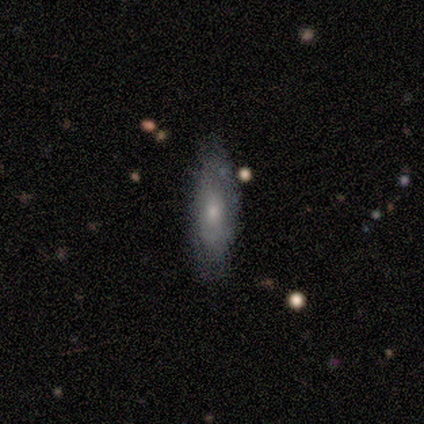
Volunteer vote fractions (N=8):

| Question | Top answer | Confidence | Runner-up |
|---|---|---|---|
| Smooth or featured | featured or disk | 50% | smooth (38%) |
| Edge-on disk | no | 100% | — |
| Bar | no | 75% | weak (25%) |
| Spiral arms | no | 100% | — |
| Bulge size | moderate | 50% | tied: small (50%) |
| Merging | none | 86% | minor disturbance (14%) |